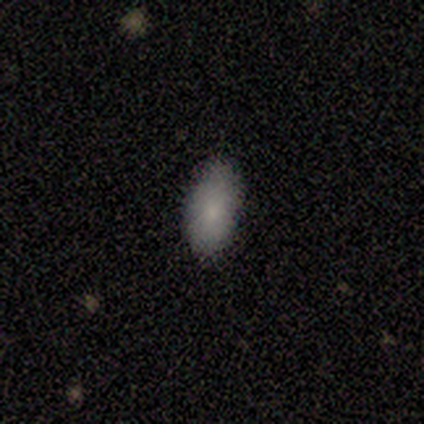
A smooth galaxy with no disk features (100%) that is in between round and cigar-shaped (100%).

Vote fractions:
- Smooth or featured? smooth: 100% / featured or disk: 0% / star or artifact: 0%
- How rounded? in between: 100% / round: 0% / cigar-shaped: 0%
- Merging? none: 100% / minor disturbance: 0% / major disturbance: 0% / merger: 0%